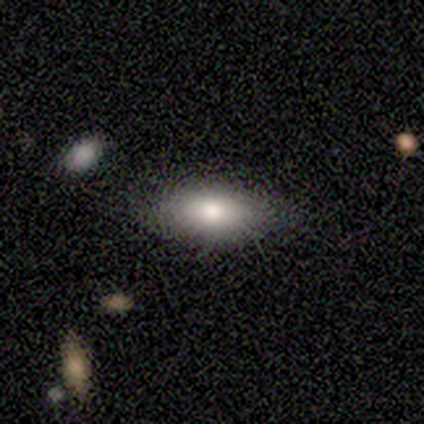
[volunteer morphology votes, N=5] smooth 80%, star or artifact 20%, featured or disk 0%. Down the decision tree: how rounded — in between (100%); merging — none (100%).